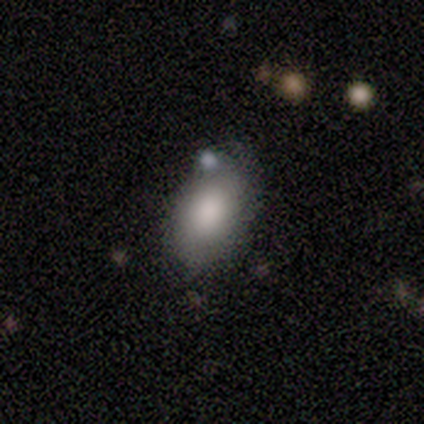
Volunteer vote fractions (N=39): Smooth or featured: smooth — 87% (featured or disk — 10%)
How rounded: in between — 91% (round — 9%)
Merging: none — 66% (minor disturbance — 18%)